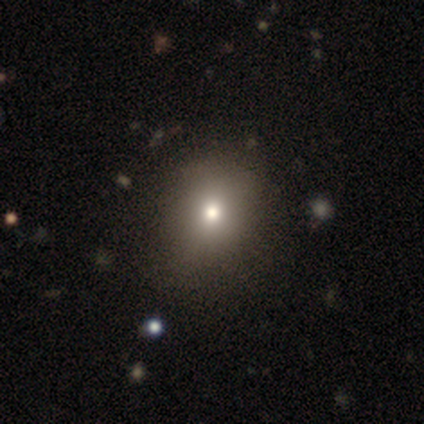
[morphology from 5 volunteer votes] smooth_or_featured: smooth (p=1.00)
how_rounded: round (p=0.80) [alt: in between p=0.20]
merging: none (p=0.80) [alt: minor disturbance p=0.20]